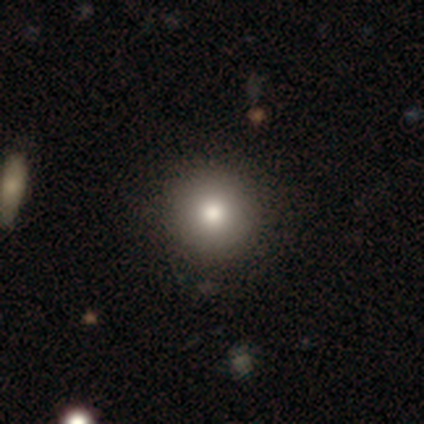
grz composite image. It shows a smooth galaxy with no disk features (69%) that is round (96%). Merging: none (72%).